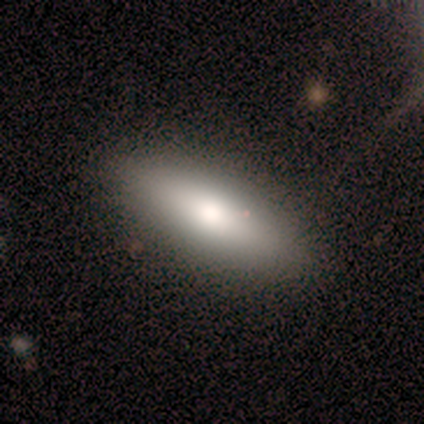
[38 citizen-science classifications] smooth 74%, featured or disk 21%, star or artifact 5%. Down the decision tree: how rounded — in between (75%); merging — none (89%).